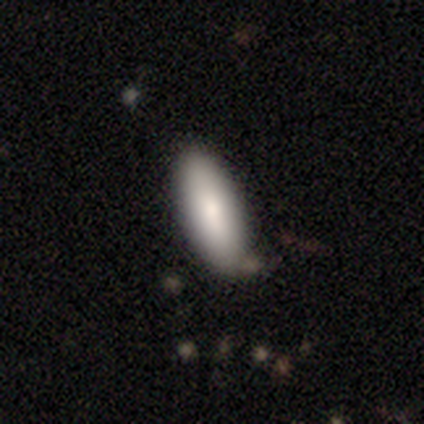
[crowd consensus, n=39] Q: Smooth or featured?
A: smooth (87%); runner-up: featured or disk (10%)
Q: How rounded?
A: in between (71%); runner-up: cigar-shaped (29%)
Q: Merging?
A: none (87%); runner-up: minor disturbance (8%)